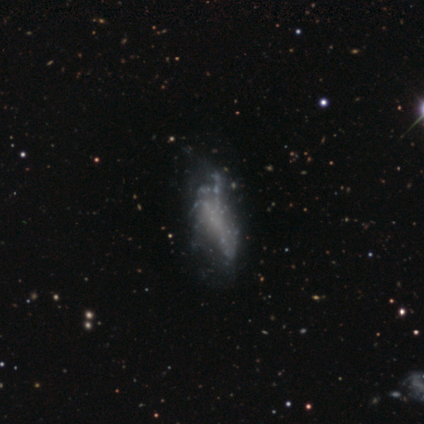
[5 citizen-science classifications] smooth_or_featured: featured or disk (p=0.60) [alt: smooth p=0.40]
disk_edge_on: no (p=0.67) [alt: yes p=0.33]
bar: weak (p=0.50) [tied with: no p=0.50]
has_spiral_arms: yes (p=0.50) [tied with: no p=0.50]
spiral_winding: loose (p=1.00)
spiral_arm_count: can't tell (p=1.00)
bulge_size: none (p=1.00)
merging: none (p=0.60) [alt: major disturbance p=0.40]